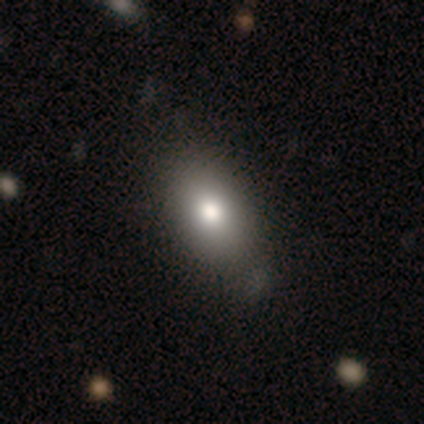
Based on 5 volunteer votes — A smooth galaxy with no disk features (100%) that is in between round and cigar-shaped (100%). Merging: minor disturbance (60%).